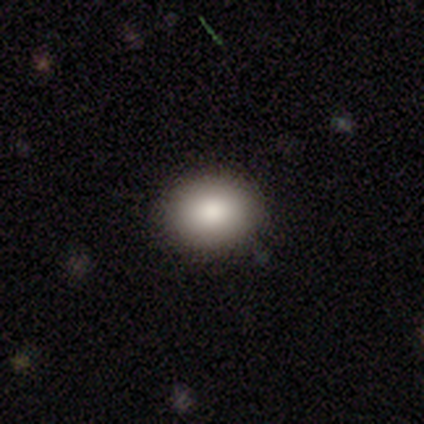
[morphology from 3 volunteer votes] Smooth or featured? smooth (67%)
How rounded? round (50%, tied with in between)
Merging? none (100%)